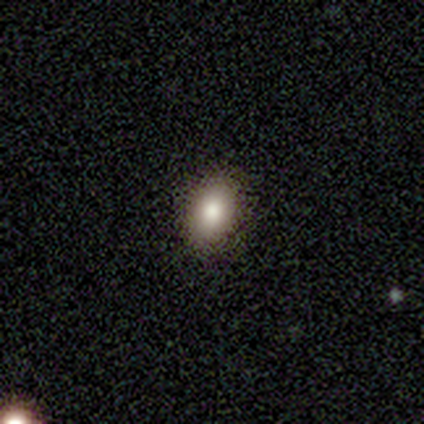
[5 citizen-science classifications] A smooth galaxy with no disk features (100%) that is in between round and cigar-shaped (80%). Merging: none (100%).